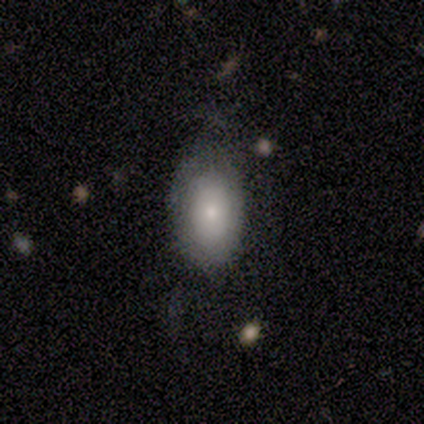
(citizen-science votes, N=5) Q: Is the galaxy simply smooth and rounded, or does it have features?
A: smooth — 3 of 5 (60%).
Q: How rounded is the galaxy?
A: in between — 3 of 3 (100%).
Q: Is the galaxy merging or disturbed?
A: none — 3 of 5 (60%).